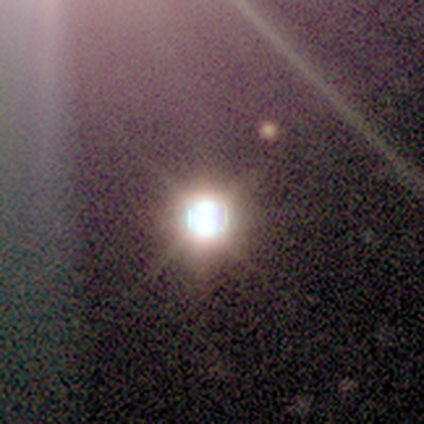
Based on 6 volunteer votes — This is clearly a star or artifact rather than a galaxy (100%).